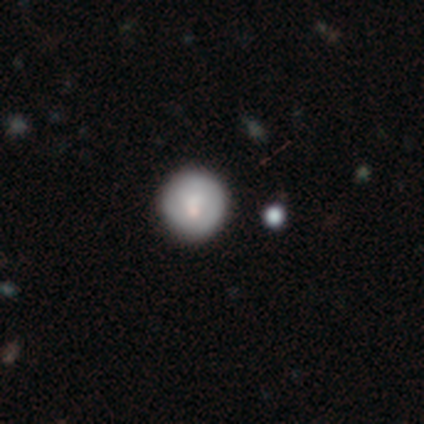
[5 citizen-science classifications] A smooth galaxy with no disk features (60%) that is round (100%). Merging: none (80%).